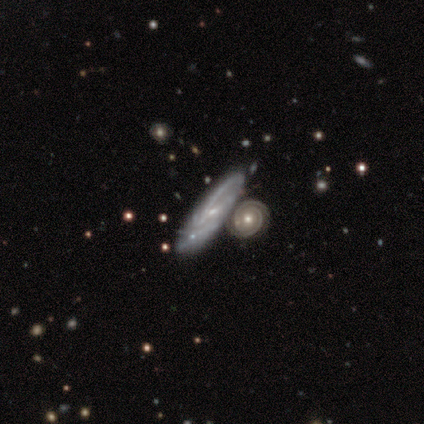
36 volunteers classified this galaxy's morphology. Q: Smooth or featured?
A: featured or disk (89%); runner-up: smooth (6%)
Q: Edge-on disk?
A: no (84%); runner-up: yes (16%)
Q: Bar?
A: no (44%); runner-up: weak (37%)
Q: Spiral arms?
A: yes (93%); runner-up: no (7%)
Q: Spiral winding?
A: tight (64%); runner-up: medium (20%)
Q: Spiral arm count?
A: 2 (64%); runner-up: 3 (16%)
Q: Bulge size?
A: small (52%); runner-up: moderate (33%)
Q: Merging?
A: none (47%); runner-up: merger (41%)